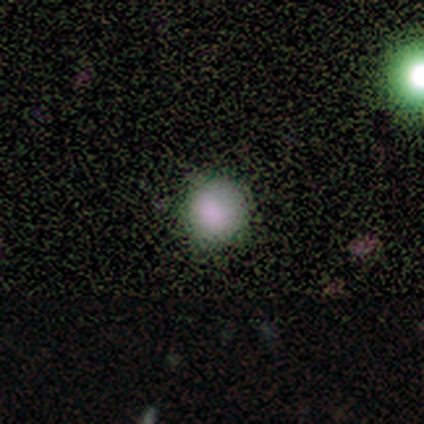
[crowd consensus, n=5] smooth-or-featured: smooth: 80% | featured or disk: 20% | star or artifact: 0%
  how-rounded: round: 100% | in between: 0% | cigar-shaped: 0%
  merging: none: 100% | minor disturbance: 0% | major disturbance: 0% | merger: 0%